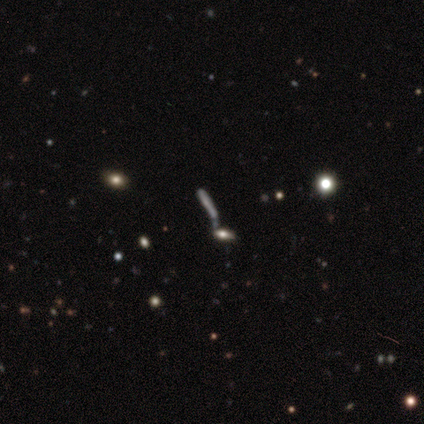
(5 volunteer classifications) smooth 60%, featured or disk 40%, star or artifact 0%. Down the decision tree: how rounded — cigar-shaped (100%); merging — none (40%, tied with merger).